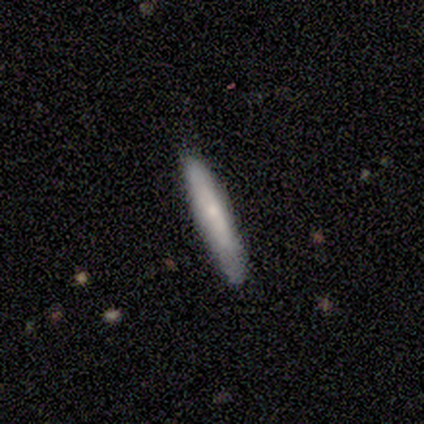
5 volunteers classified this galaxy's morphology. Volunteers were most divided on "smooth or featured": smooth: 80%, featured or disk: 20%, star or artifact: 0%. More confident: how rounded — cigar-shaped (100%); merging — none (100%).